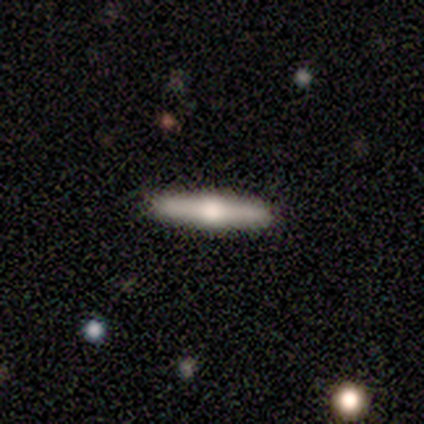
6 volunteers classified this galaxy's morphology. A featured or disk galaxy (67%) viewed edge-on (100%) with a rounded central bulge (100%).

Vote fractions:
- Smooth or featured? featured or disk: 67% / smooth: 33% / star or artifact: 0%
- Edge-on disk? yes: 100% / no: 0%
- Edge-on bulge? rounded: 100% / boxy: 0% / none: 0%
- Merging? none: 67% / minor disturbance: 33% / major disturbance: 0% / merger: 0%